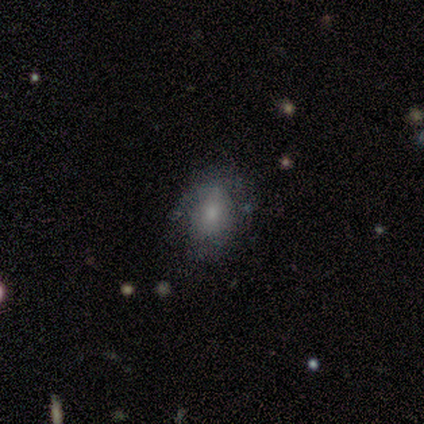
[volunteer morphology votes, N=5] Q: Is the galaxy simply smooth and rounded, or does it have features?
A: smooth — 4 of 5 (80%).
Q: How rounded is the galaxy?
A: in between — 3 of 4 (75%).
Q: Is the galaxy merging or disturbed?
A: minor disturbance — 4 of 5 (80%).